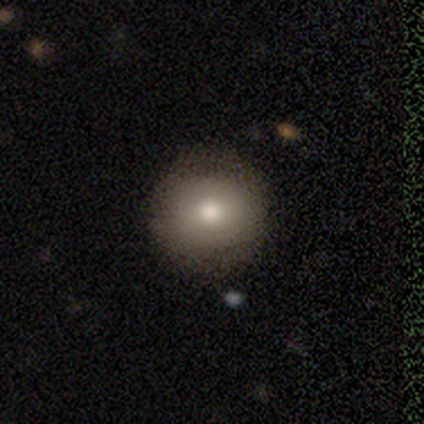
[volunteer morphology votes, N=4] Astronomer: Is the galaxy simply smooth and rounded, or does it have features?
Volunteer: smooth — 100%.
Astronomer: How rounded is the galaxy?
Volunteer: round — 75%.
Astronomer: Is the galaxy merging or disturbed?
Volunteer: none — 100%.